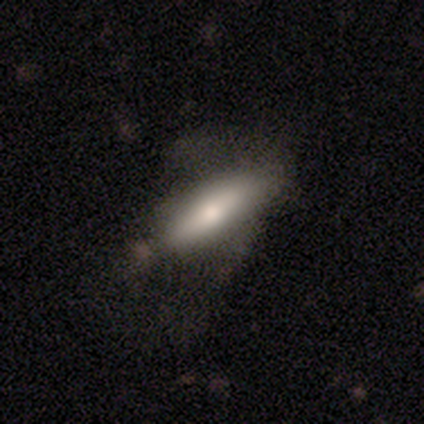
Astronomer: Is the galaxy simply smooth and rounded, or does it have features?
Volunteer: smooth — 60% (runner-up: featured or disk, 40%).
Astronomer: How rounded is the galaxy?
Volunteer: in between — 67%.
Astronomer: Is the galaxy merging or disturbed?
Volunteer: none — 60%.